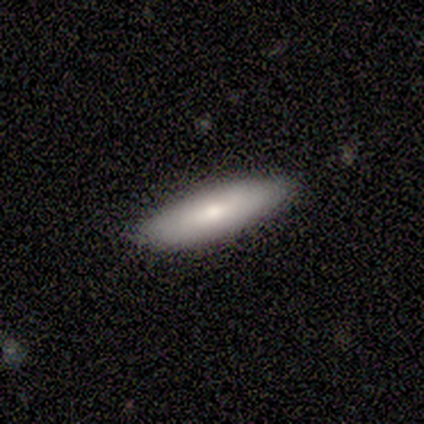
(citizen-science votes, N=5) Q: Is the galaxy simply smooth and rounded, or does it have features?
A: featured or disk — 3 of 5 (60%).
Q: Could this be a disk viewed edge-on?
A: no — 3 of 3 (100%).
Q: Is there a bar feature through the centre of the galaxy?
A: no — 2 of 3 (67%).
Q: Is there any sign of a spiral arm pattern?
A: no — 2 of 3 (67%).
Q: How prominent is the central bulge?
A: moderate — 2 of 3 (67%).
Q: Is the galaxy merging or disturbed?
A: none — 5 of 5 (100%).